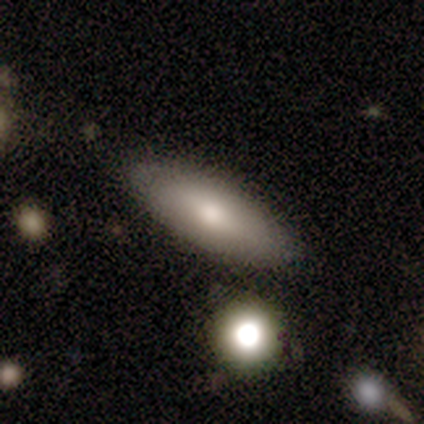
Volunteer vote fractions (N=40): This appears to be a smooth galaxy with no disk features (78%) that is in between round and cigar-shaped (48%). Merging: none (76%).